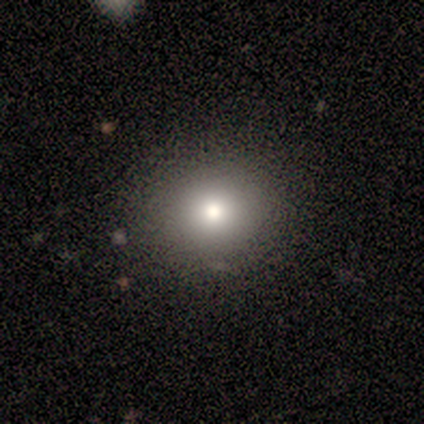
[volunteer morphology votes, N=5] Smooth or featured: smooth — 60% (star or artifact — 40%)
How rounded: round — 100%
Merging: none — 67% (minor disturbance — 33%)